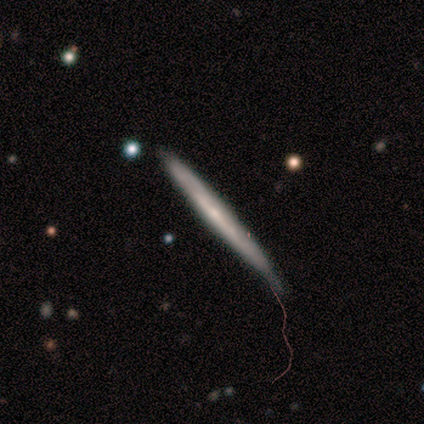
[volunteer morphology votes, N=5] Smooth or featured? featured or disk (80%)
Edge-on disk? yes (75%)
Edge-on bulge? none (67%)
Merging? minor disturbance (80%)